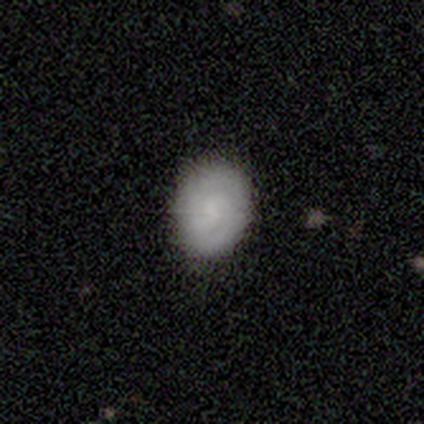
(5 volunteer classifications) smooth 40% (tied), featured or disk 40% (tied), star or artifact 20%. Down the decision tree: how rounded — round (100%); merging — none (75%).